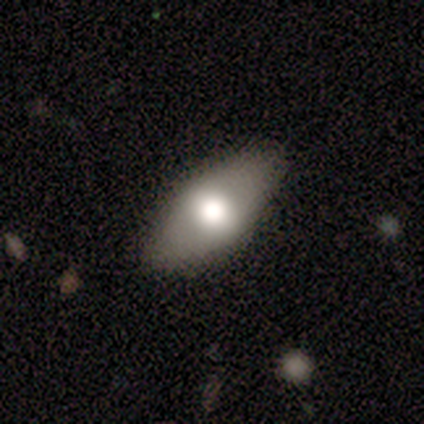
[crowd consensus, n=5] A smooth galaxy with no disk features (60%) that is in between round and cigar-shaped (67%).

Vote fractions:
- Smooth or featured? smooth: 60% / featured or disk: 40% / star or artifact: 0%
- How rounded? in between: 67% / cigar-shaped: 33% / round: 0%
- Merging? none: 100% / minor disturbance: 0% / major disturbance: 0% / merger: 0%